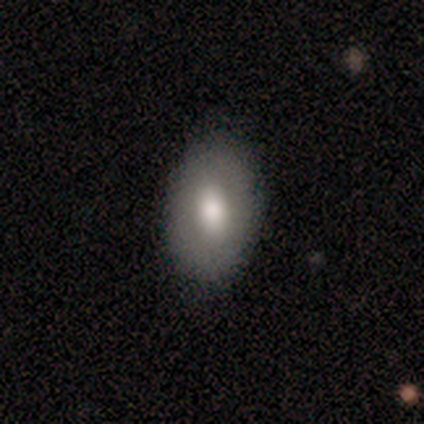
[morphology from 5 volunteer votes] smooth_or_featured: smooth (p=1.00)
how_rounded: in between (p=0.60) [alt: round p=0.20]
merging: none (p=1.00)